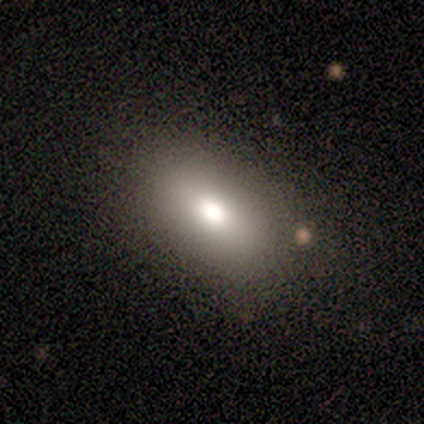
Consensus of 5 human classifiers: A smooth galaxy with no disk features (80%) that is in between round and cigar-shaped (75%). Merging: none (80%).